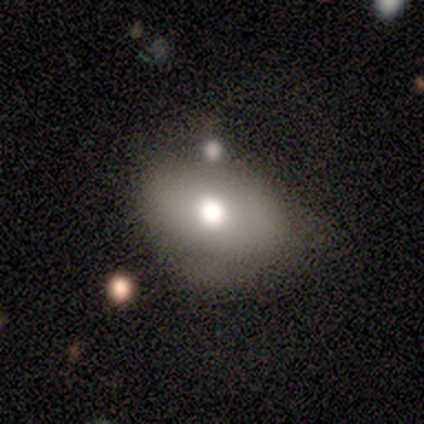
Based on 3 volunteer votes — Smooth or featured: smooth — 67% (featured or disk — 33%)
How rounded: in between — 100%
Merging: none — 67% (merger — 33%)